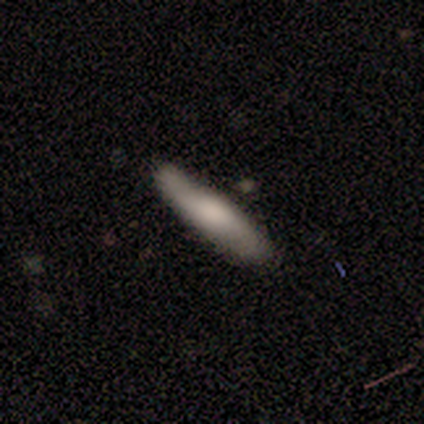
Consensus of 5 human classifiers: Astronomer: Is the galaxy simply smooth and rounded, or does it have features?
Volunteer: smooth — 60% (runner-up: featured or disk, 40%).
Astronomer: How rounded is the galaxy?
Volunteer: cigar-shaped — 67%.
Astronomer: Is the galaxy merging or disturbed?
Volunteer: none — 60% (runner-up: minor disturbance, 40%).